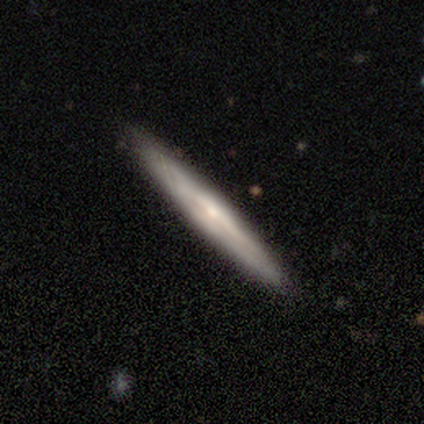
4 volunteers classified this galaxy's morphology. Smooth or featured: featured or disk — 75% (smooth — 25%)
Edge-on disk: yes — 100%
Edge-on bulge: rounded — 67% (none — 33%)
Merging: none — 100%